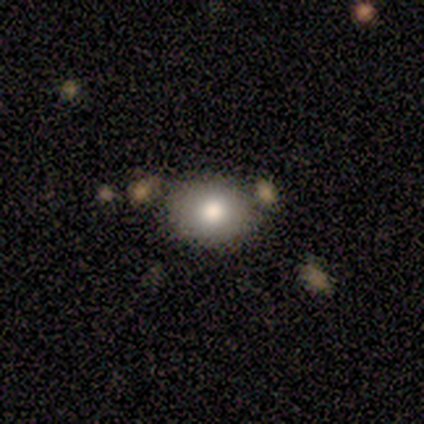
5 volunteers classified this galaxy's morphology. A smooth galaxy with no disk features (100%) that is in between round and cigar-shaped (80%).

Vote fractions:
- Smooth or featured? smooth: 100% / featured or disk: 0% / star or artifact: 0%
- How rounded? in between: 80% / round: 20% / cigar-shaped: 0%
- Merging? none: 100% / minor disturbance: 0% / major disturbance: 0% / merger: 0%